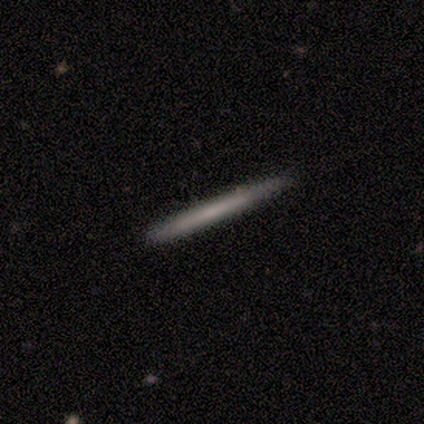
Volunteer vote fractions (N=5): This appears to be a smooth galaxy with no disk features (60%) that is cigar-shaped (100%). Merging: none (80%).